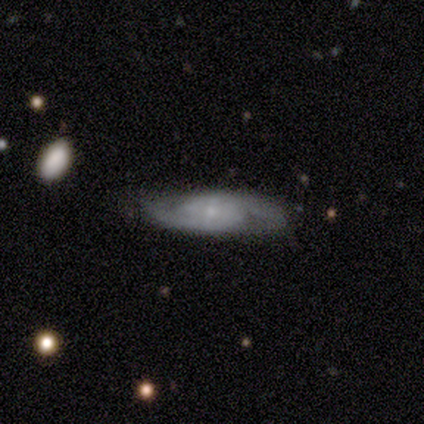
A smooth galaxy with no disk features (50%, tied with featured or disk) that is in between round and cigar-shaped (50%, tied with cigar-shaped).

Vote fractions:
- Smooth or featured? smooth: 50% (tied) / featured or disk: 50% (tied) / star or artifact: 0%
- How rounded? in between: 50% (tied) / cigar-shaped: 50% (tied) / round: 0%
- Merging? none: 75% / major disturbance: 25% / minor disturbance: 0% / merger: 0%